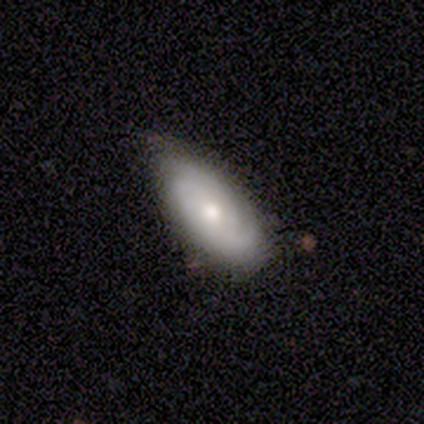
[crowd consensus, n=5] A featured or disk galaxy (100%) with no bar (80%), 2 (100%) tight (75%) spiral arms (80%) and a moderate central bulge (60%).

Vote fractions:
- Smooth or featured? featured or disk: 100% / smooth: 0% / star or artifact: 0%
- Edge-on disk? no: 100% / yes: 0%
- Bar? no: 80% / weak: 20% / strong: 0%
- Spiral arms? yes: 80% / no: 20%
- Spiral winding? tight: 75% / medium: 25% / loose: 0%
- Spiral arm count? 2: 100% / 1: 0% / 3: 0% / 4: 0% / more than 4: 0% / can't tell: 0%
- Bulge size? moderate: 60% / large: 20% / small: 20% / dominant: 0% / none: 0%
- Merging? none: 40% (tied) / minor disturbance: 40% (tied) / merger: 20% / major disturbance: 0%